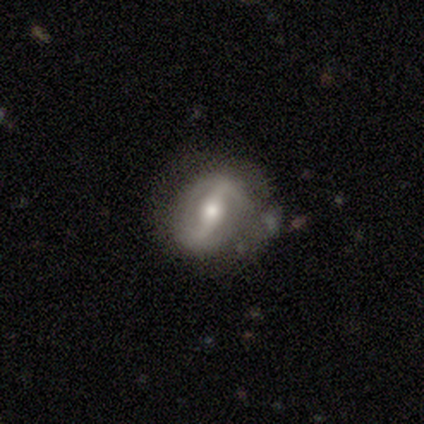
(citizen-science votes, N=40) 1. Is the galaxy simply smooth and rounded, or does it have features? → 88% featured or disk, 8% smooth, 5% star or artifact.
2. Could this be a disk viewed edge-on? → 97% no, 3% yes.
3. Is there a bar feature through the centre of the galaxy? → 65% strong, 21% weak, 15% no.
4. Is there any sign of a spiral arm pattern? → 88% yes, 12% no.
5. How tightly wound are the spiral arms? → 47% loose, 30% medium, 23% tight.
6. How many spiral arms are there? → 80% 2, 17% can't tell, 3% 1, 0% 3, 0% 4, 0% more than 4.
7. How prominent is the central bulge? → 62% moderate, 24% small, 12% large, 3% dominant, 0% none.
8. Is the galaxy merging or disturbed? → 79% none, 13% minor disturbance, 5% merger, 3% major disturbance.